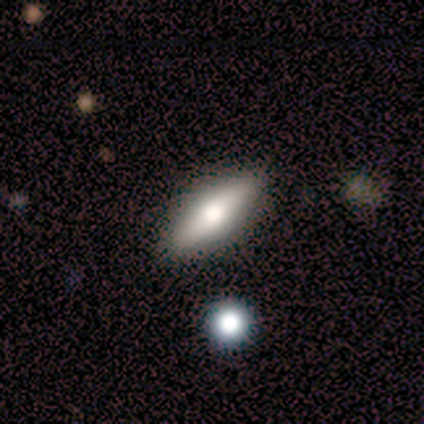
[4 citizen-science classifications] This is possibly a smooth galaxy (50%, tied with featured or disk). How rounded: clearly in between (100%). Merging: clearly none (100%).